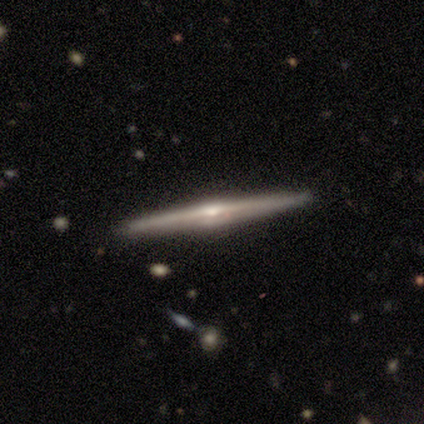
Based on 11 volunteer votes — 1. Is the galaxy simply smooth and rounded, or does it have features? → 91% featured or disk, 9% smooth, 0% star or artifact.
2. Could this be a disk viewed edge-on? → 100% yes, 0% no.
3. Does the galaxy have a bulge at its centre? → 70% rounded, 20% boxy, 10% none.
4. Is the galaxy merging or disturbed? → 82% none, 18% minor disturbance, 0% major disturbance, 0% merger.